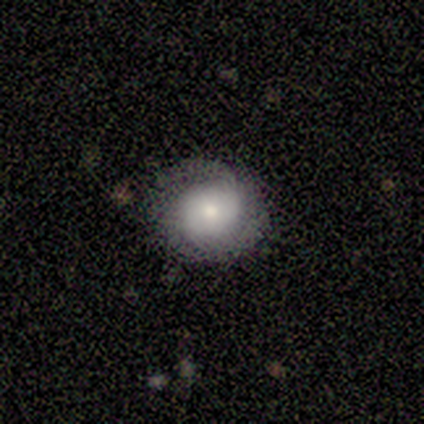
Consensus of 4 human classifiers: This appears to be a featured or disk galaxy (50%) with a weak bar (100%), 2 (50%, tied with can't tell) tight (50%, tied with loose) spiral arms (100%) and a moderate central bulge (50%, tied with small). Merging: none (67%).